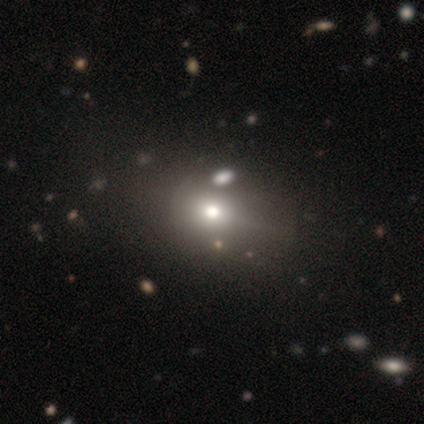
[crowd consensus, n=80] Overall: smooth (65%). How rounded: in between (52%; round 46%). Merging: none (36%; minor disturbance 10%).